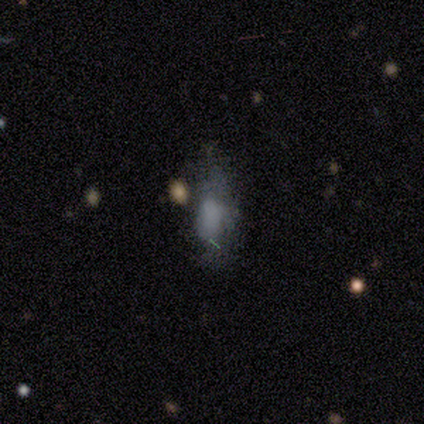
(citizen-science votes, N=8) Volunteers were most divided on "merging": none: 43%, minor disturbance: 29%, major disturbance: 29%, merger: 0%. More confident: how rounded — in between (80%); smooth or featured — smooth (62%).